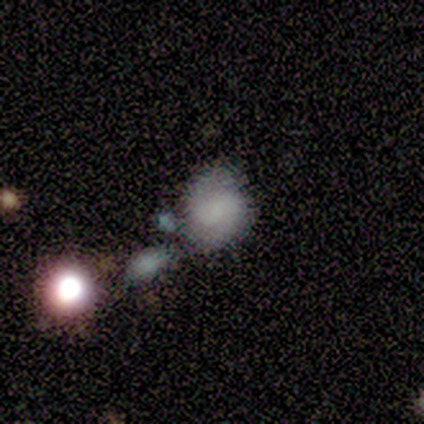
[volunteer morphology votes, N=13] Smooth or featured?
  - featured or disk: 62% *
  - smooth: 31%
  - star or artifact: 8%
Edge-on disk?
  - no: 100% *
  - yes: 0%
Bar?
  - no: 50% *
  - weak: 38%
  - strong: 12%
Spiral arms?
  - yes: 75% *
  - no: 25%
Spiral winding?
  - medium: 50% *
  - tight: 33%
  - loose: 17%
Spiral arm count?
  - 2: 100% *
  - 1: 0%
  - 3: 0%
  - 4: 0%
  - more than 4: 0%
  - can't tell: 0%
Bulge size?
  - none: 50% *
  - moderate: 25%
  - large: 12%
  - small: 12%
  - dominant: 0%
Merging?
  - none: 83% *
  - minor disturbance: 8%
  - major disturbance: 8%
  - merger: 0%